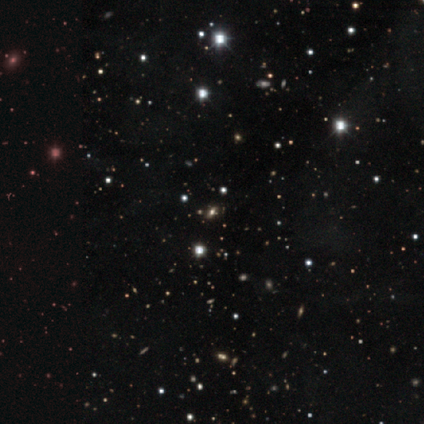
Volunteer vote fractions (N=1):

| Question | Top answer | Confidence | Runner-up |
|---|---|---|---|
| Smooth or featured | star or artifact | 100% | — |